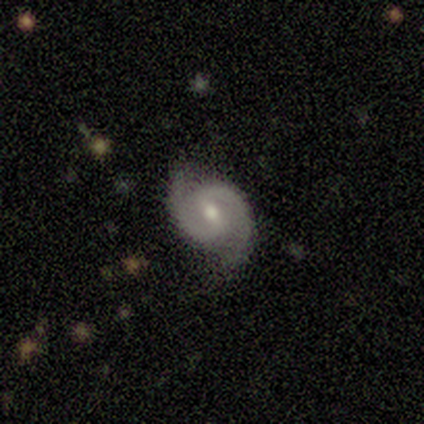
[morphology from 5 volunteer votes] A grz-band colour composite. It shows a featured or disk galaxy (80%) with a weak bar (50%), 2 (100%) medium (75%) spiral arms (100%) and a moderate central bulge (50%, tied with small). Merging: none (80%).